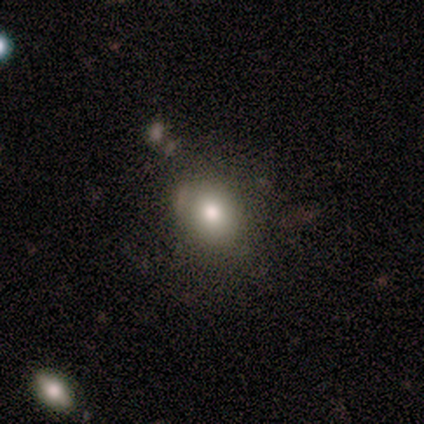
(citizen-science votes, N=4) Smooth or featured? smooth (50%, tied with featured or disk)
How rounded? in between (100%)
Merging? none (75%)